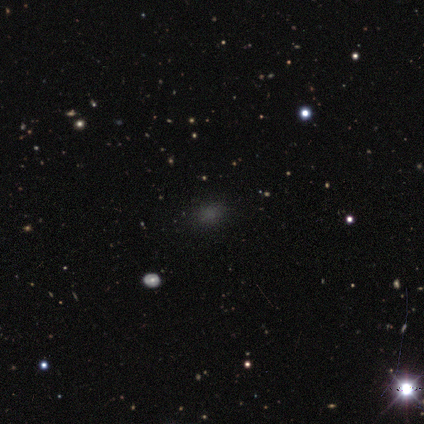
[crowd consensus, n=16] smooth-or-featured: smooth: 56% | star or artifact: 31% | featured or disk: 12%
  how-rounded: round: 67% | in between: 33% | cigar-shaped: 0%
  merging: none: 82% | minor disturbance: 18% | major disturbance: 0% | merger: 0%